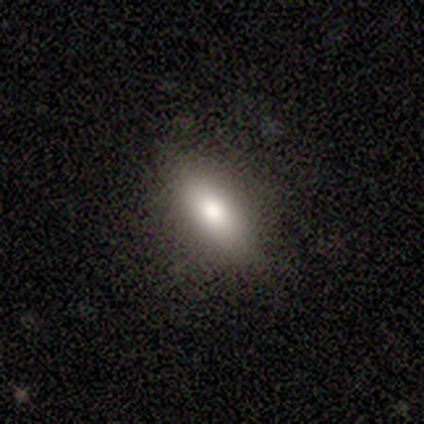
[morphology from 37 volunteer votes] This is likely a smooth galaxy (78%). How rounded: possibly in between (55%). Merging: clearly none (84%).